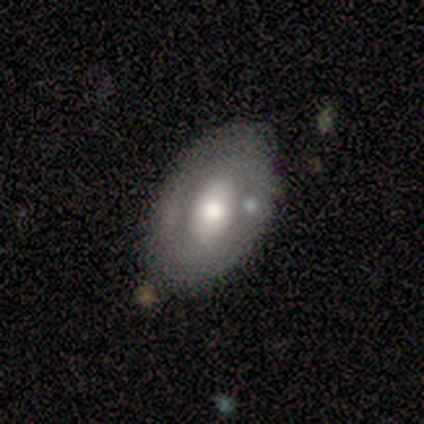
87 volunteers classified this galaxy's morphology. Smooth or featured: smooth — 54% (featured or disk — 43%)
How rounded: in between — 91% (round — 9%)
Merging: none — 68% (minor disturbance — 25%)